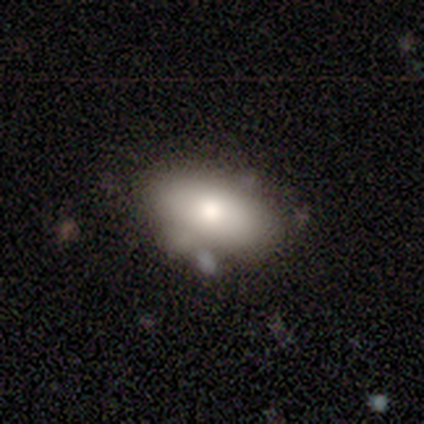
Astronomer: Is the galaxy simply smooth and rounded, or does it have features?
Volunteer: smooth — 84%.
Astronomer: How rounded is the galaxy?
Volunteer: in between — 90%.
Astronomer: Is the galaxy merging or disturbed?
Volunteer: none — 64%.